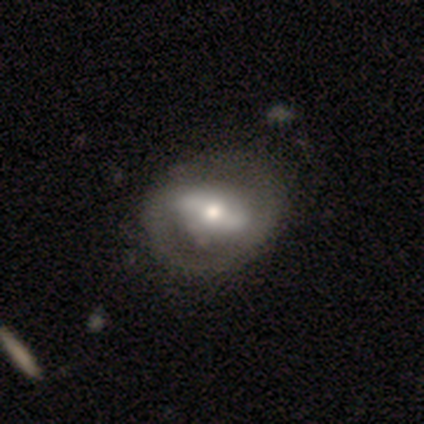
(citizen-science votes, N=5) A featured or disk galaxy (80%) with a strong bar (75%), no spiral arms (75%) and a moderate central bulge (75%). Merging: none (100%).